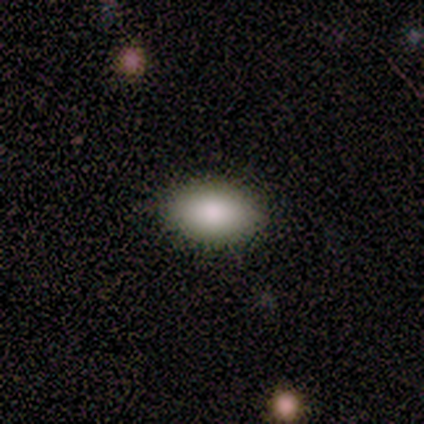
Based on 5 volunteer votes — Smooth or featured?
  - smooth: 100% *
  - featured or disk: 0%
  - star or artifact: 0%
How rounded?
  - in between: 80% *
  - cigar-shaped: 20%
  - round: 0%
Merging?
  - none: 60% *
  - minor disturbance: 40%
  - major disturbance: 0%
  - merger: 0%